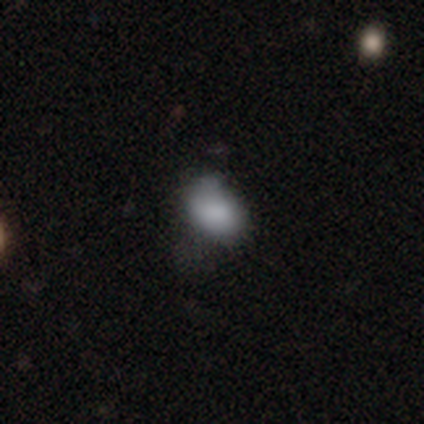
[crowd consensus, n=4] Overall: smooth (100%). How rounded: in between (75%). Merging: minor disturbance (75%).